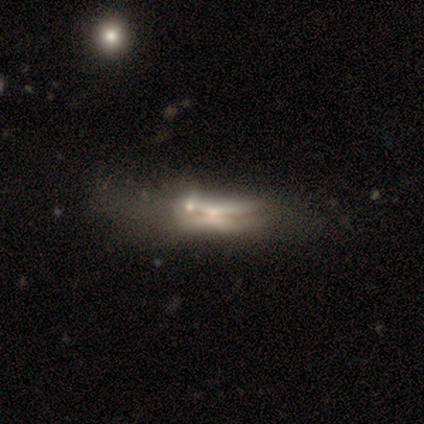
This is likely a featured or disk galaxy (68%). It is likely viewed edge-on (67%). Edge-on bulge: likely rounded (61%). Merging: marginally none (26%, tied with minor disturbance and merger).